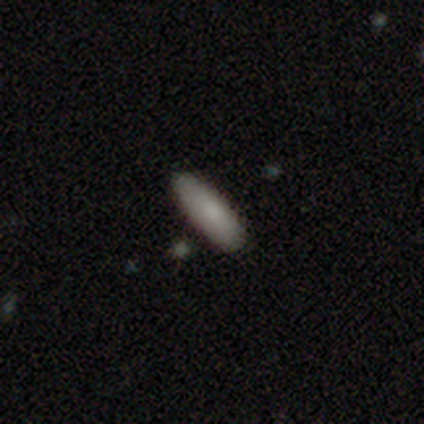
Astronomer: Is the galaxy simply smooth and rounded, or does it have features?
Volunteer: smooth — 75%.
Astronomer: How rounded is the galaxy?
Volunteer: in between — 56% (runner-up: cigar-shaped, 44%).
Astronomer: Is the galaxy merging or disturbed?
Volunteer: none — 100%.